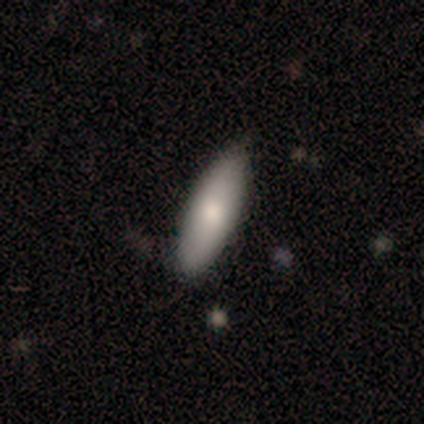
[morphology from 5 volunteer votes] Smooth or featured: smooth — 100%
How rounded: cigar-shaped — 100%
Merging: none — 100%